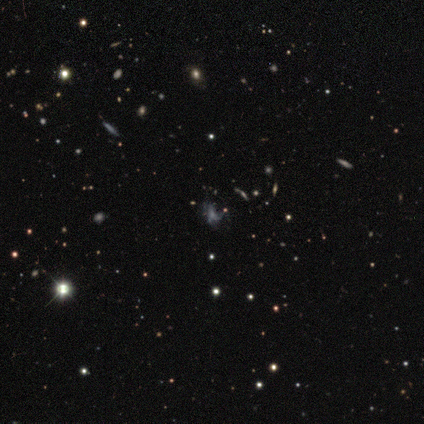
Volunteers were most divided on "smooth or featured" (2-way tie): featured or disk: 48%, star or artifact: 48%, smooth: 4%. More confident: edge-on disk — no (100%); bar — no (83%); spiral arms — no (75%); bulge size — none (58%); merging — none (54%).